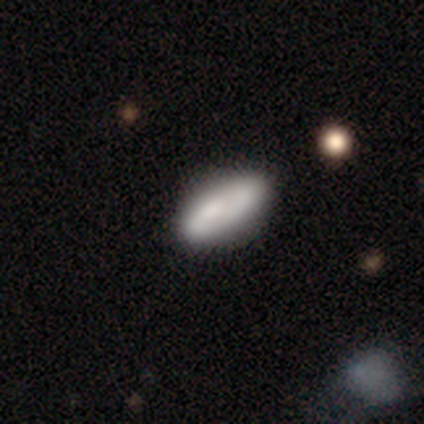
Overall: smooth (54%; featured or disk 38%). How rounded: in between (90%). Merging: none (44%; major disturbance 11%).